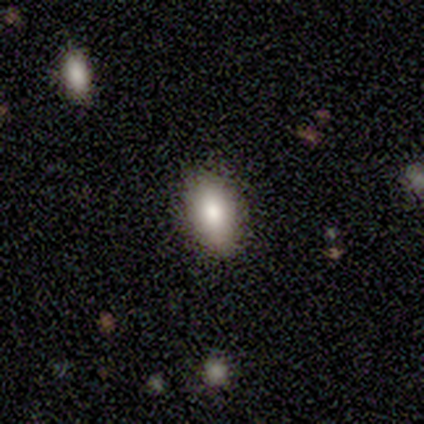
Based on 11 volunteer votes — A smooth galaxy with no disk features (82%) that is in between round and cigar-shaped (100%). Merging: none (82%).